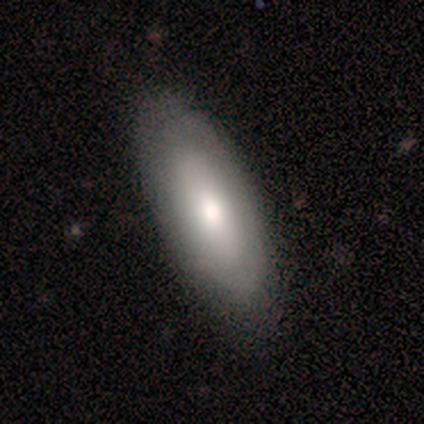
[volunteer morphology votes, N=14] Overall: smooth (71%). How rounded: in between (80%). Merging: none (79%).